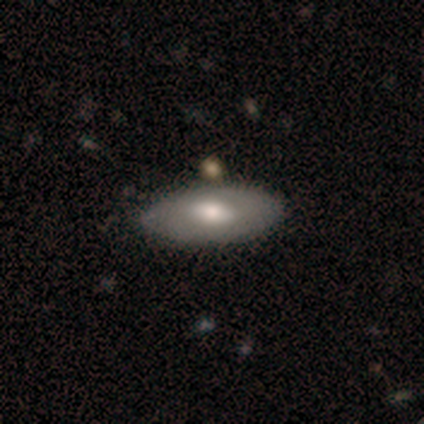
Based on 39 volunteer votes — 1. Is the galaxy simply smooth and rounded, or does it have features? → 62% smooth, 31% featured or disk, 8% star or artifact.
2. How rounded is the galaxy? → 92% in between, 8% cigar-shaped, 0% round.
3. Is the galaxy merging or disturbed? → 83% none, 14% minor disturbance, 3% merger, 0% major disturbance.